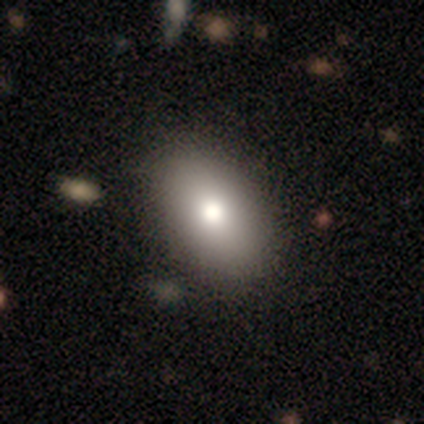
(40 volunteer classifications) smooth 78%, star or artifact 12%, featured or disk 10%. Down the decision tree: how rounded — in between (97%); merging — none (66%).